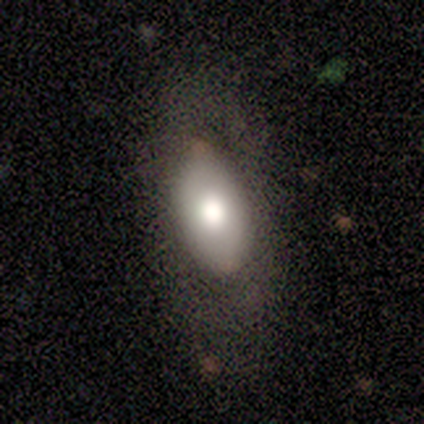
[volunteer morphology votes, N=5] Smooth or featured? 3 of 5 (60%) said smooth. How rounded? 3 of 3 (100%) said in between. Merging? 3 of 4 (75%) said none.